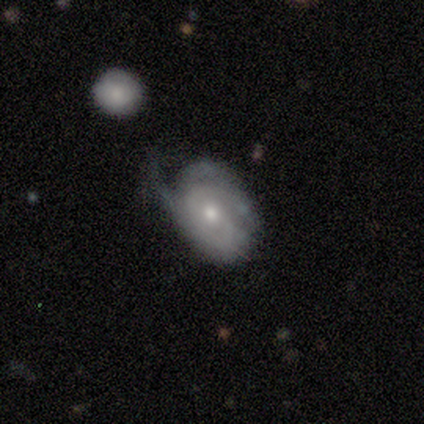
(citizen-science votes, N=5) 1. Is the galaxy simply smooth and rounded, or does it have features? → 80% featured or disk, 20% star or artifact, 0% smooth.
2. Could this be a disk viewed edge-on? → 100% no, 0% yes.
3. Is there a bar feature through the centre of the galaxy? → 75% no, 25% weak, 0% strong.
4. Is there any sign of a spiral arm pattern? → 75% yes, 25% no.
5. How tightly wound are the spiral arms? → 67% tight, 33% medium, 0% loose.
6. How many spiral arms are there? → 67% can't tell, 33% 1, 0% 2, 0% 3, 0% 4, 0% more than 4.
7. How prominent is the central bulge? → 50% moderate, 25% large, 25% small, 0% dominant, 0% none.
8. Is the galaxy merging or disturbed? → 50% none (tied), 50% minor disturbance (tied), 0% major disturbance, 0% merger.